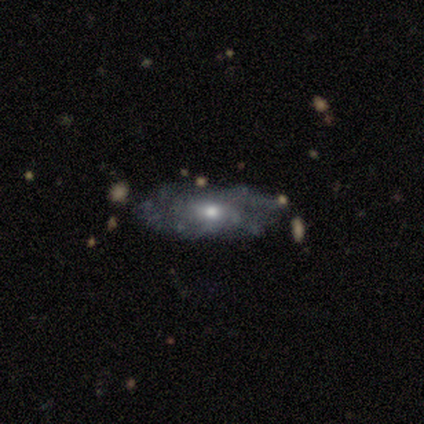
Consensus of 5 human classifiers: Smooth or featured? 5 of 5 (100%) said featured or disk. Edge-on disk? 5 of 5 (100%) said no. Bar? 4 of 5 (80%) said no. Spiral arms? 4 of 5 (80%) said no. Bulge size? 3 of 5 (60%) said moderate. Merging? 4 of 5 (80%) said none.